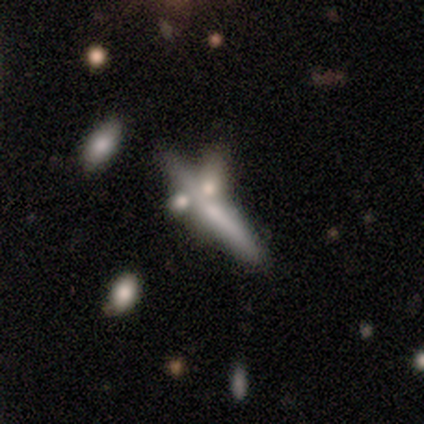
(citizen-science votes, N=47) Smooth or featured?
  - featured or disk: 53% *
  - smooth: 34%
  - star or artifact: 13%
Edge-on disk?
  - yes: 84% *
  - no: 16%
Edge-on bulge?
  - rounded: 62% *
  - none: 24%
  - boxy: 14%
Merging?
  - none: 46% *
  - merger: 32%
  - minor disturbance: 17%
  - major disturbance: 5%